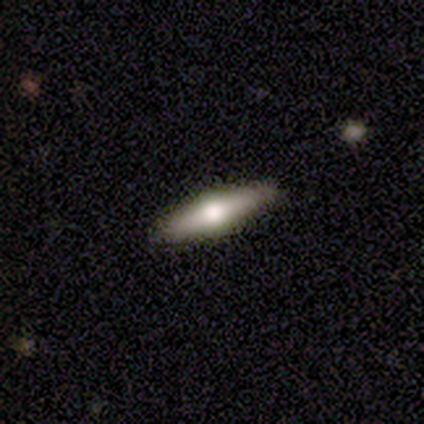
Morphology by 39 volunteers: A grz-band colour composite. It shows a featured or disk galaxy (69%) viewed edge-on (93%) with a rounded central bulge (92%). Merging: none (92%).